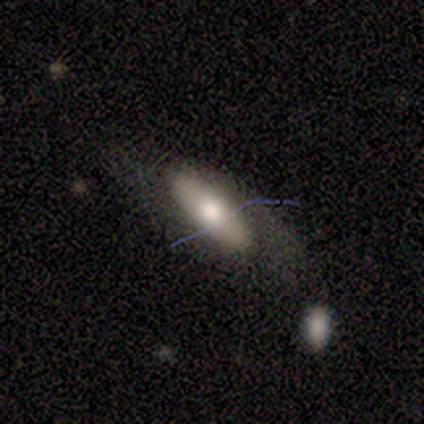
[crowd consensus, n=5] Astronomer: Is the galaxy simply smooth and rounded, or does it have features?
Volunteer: smooth — 60%.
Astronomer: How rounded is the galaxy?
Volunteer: in between — 100%.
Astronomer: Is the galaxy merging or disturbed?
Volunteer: none — 50%.